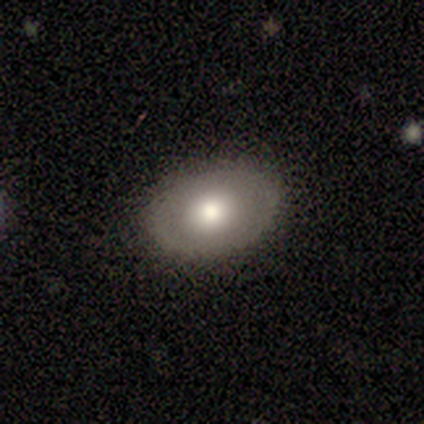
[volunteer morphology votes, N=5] Q: Smooth or featured?
A: star or artifact (60%); runner-up: smooth (40%)